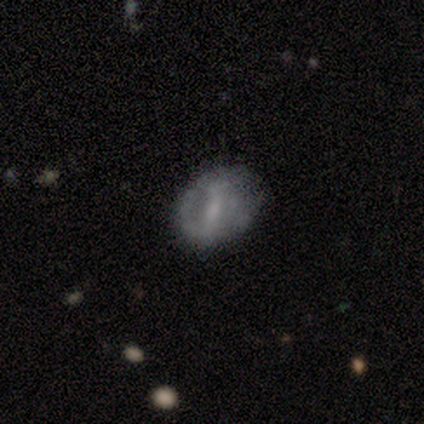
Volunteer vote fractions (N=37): Smooth or featured? 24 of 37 (65%) said featured or disk. Edge-on disk? 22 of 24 (92%) said no. Bar? 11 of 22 (50%) said weak. Spiral arms? 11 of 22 (50%, tied with no) said yes. Spiral winding? 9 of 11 (82%) said loose. Spiral arm count? 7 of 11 (64%) said 2. Bulge size? 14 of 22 (64%) said small. Merging? 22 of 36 (61%) said none.